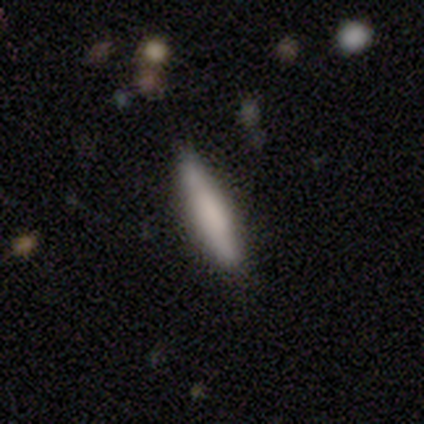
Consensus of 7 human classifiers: This appears to be a smooth galaxy with no disk features (43%, tied with featured or disk) that is cigar-shaped (67%). Merging: none (67%).